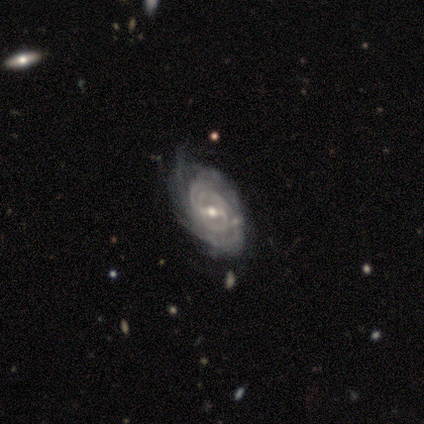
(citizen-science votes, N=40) Smooth or featured? featured or disk (92%)
Edge-on disk? no (97%)
Bar? weak (44%)
Spiral arms? yes (94%)
Spiral winding? tight (82%)
Spiral arm count? can't tell (47%)
Bulge size? moderate (56%)
Merging? none (45%)